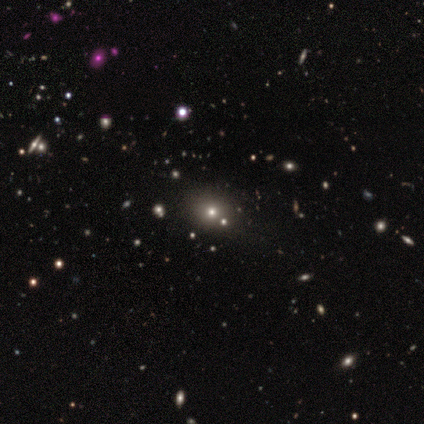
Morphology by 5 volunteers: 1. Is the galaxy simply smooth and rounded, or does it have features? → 60% smooth, 40% star or artifact, 0% featured or disk.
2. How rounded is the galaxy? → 100% round, 0% in between, 0% cigar-shaped.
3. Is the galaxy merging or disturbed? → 100% none, 0% minor disturbance, 0% major disturbance, 0% merger.